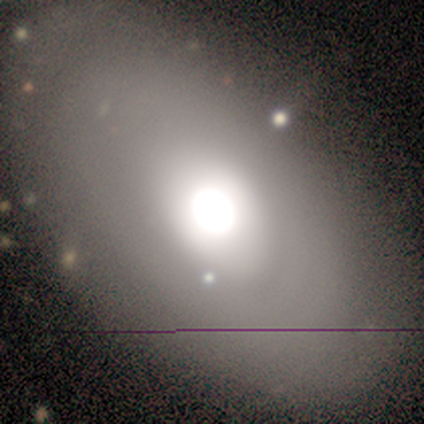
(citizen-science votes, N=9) This is clearly a smooth galaxy (89%). How rounded: likely in between (75%). Merging: likely none (78%).